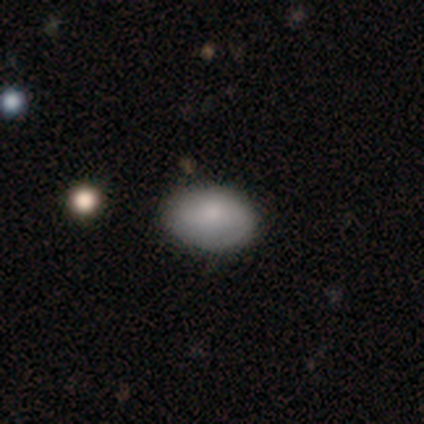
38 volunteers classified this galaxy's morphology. Smooth or featured: smooth — 76% (featured or disk — 18%)
How rounded: in between — 79% (round — 21%)
Merging: none — 81% (minor disturbance — 17%)